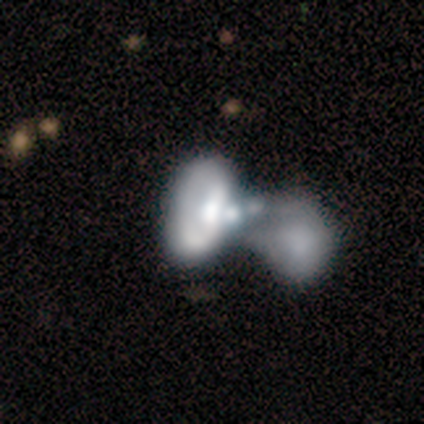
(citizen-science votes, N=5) Overall: featured or disk (80%). Edge-on disk: no (100%). Bar: no (100%). Spiral arms: no (100%). Bulge size: large (50%; moderate 25%). Merging: merger (80%).